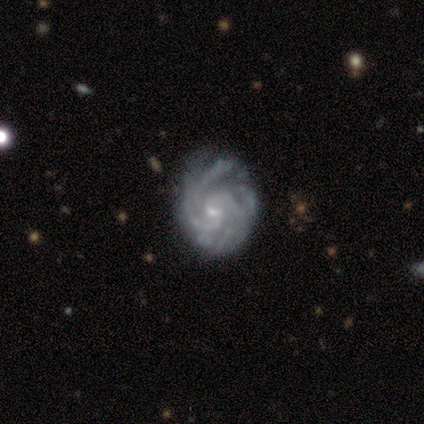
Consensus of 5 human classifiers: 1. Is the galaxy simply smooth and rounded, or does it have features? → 100% featured or disk, 0% smooth, 0% star or artifact.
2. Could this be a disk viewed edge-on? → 80% no, 20% yes.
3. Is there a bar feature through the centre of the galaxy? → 75% weak, 25% strong, 0% no.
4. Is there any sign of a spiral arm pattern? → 100% yes, 0% no.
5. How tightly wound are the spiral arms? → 75% tight, 25% medium, 0% loose.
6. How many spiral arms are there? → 25% 2 (tied), 25% 3 (tied), 25% more than 4 (tied), 25% can't tell (tied), 0% 1, 0% 4.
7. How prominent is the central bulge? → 100% small, 0% dominant, 0% large, 0% moderate, 0% none.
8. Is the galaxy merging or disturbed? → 100% none, 0% minor disturbance, 0% major disturbance, 0% merger.